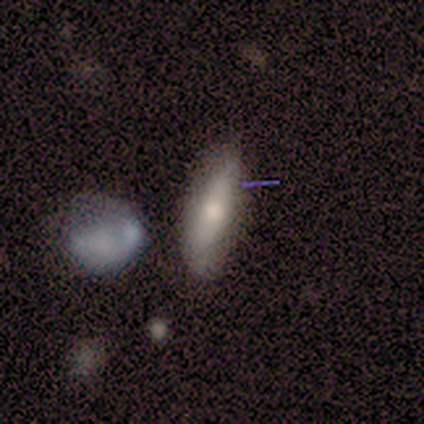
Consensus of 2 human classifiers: Smooth or featured: smooth — 50% (tied with featured or disk — 50%)
How rounded: cigar-shaped — 100%
Merging: none — 100%